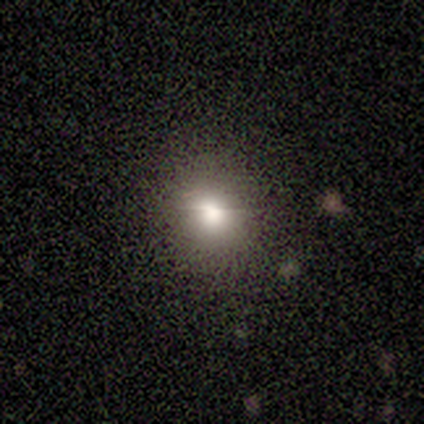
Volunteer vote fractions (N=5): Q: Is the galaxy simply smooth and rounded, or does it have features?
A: smooth — 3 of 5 (60%).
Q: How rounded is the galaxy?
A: round — 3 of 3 (100%).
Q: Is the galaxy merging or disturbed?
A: none — 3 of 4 (75%).